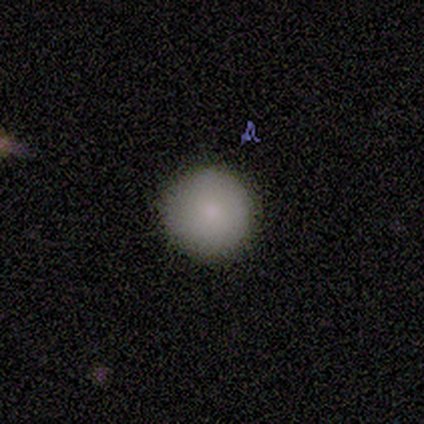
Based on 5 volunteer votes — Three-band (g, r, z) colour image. It shows a smooth galaxy with no disk features (100%) that is round (100%). Merging: none (100%).